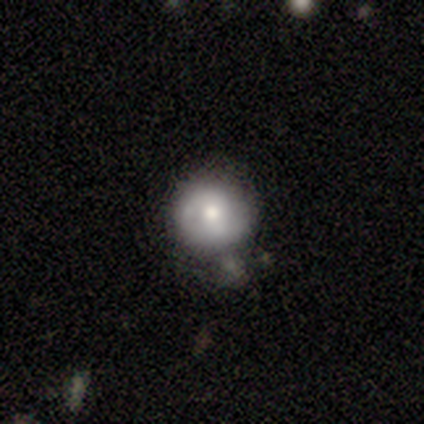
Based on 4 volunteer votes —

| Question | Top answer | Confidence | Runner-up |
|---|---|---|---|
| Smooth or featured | smooth | 75% | star or artifact (25%) |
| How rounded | round | 67% | in between (33%) |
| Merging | none | 33% | tied: major disturbance (33%), merger (33%) |